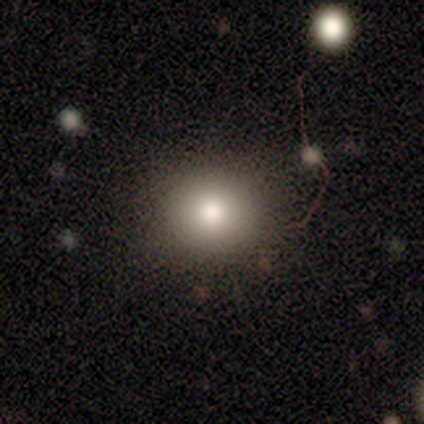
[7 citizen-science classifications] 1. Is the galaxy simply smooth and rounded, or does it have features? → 71% smooth, 14% featured or disk, 14% star or artifact.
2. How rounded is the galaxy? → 80% round, 20% in between, 0% cigar-shaped.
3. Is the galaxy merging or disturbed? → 100% none, 0% minor disturbance, 0% major disturbance, 0% merger.